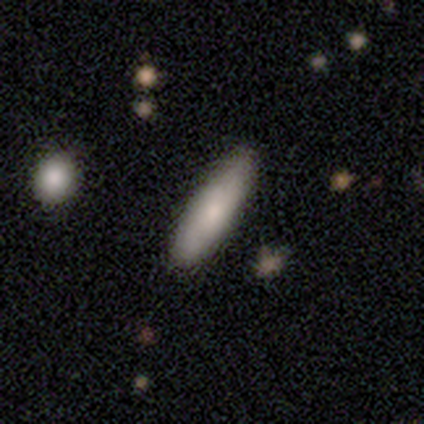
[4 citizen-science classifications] Smooth or featured: smooth — 100%
How rounded: in between — 75% (cigar-shaped — 25%)
Merging: none — 100%